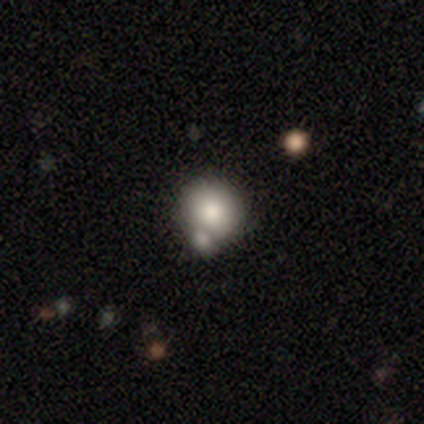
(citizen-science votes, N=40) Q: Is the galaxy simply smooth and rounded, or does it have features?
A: smooth — 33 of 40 (82%).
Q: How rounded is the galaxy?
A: round — 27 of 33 (82%).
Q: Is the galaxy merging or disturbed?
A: none — 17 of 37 (46%, tied with merger).